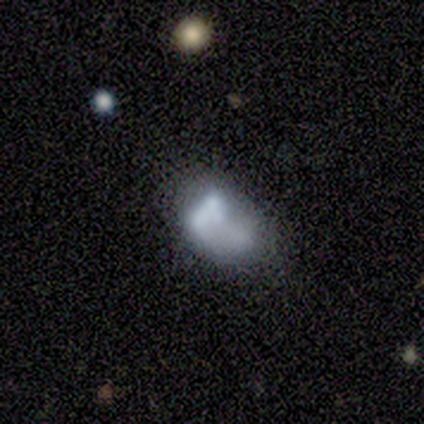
featured or disk 58%, smooth 42%, star or artifact 0%. Down the decision tree: edge-on disk — no (100%); bar — no (86%); spiral arms — no (100%); bulge size — none (57%); merging — minor disturbance (58%).